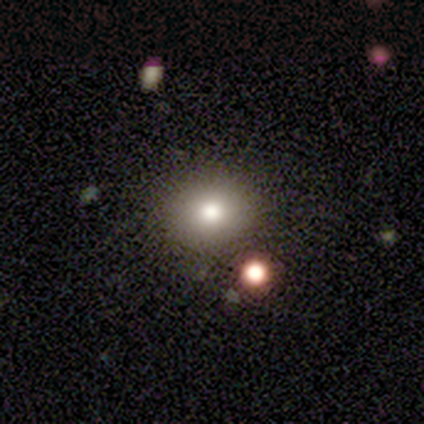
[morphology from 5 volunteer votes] A smooth galaxy with no disk features (80%) that is round (75%).

Vote fractions:
- Smooth or featured? smooth: 80% / star or artifact: 20% / featured or disk: 0%
- How rounded? round: 75% / in between: 25% / cigar-shaped: 0%
- Merging? none: 100% / minor disturbance: 0% / major disturbance: 0% / merger: 0%